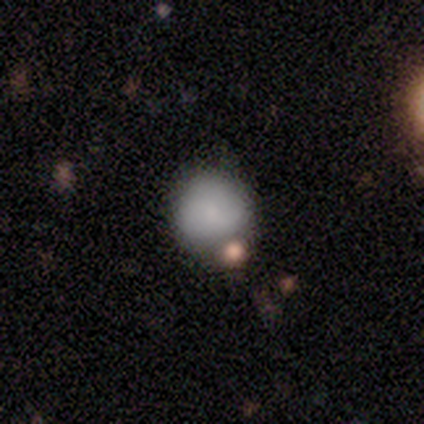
Volunteers were most divided on "smooth or featured": smooth: 60%, star or artifact: 40%, featured or disk: 0%. More confident: how rounded — round (100%); merging — none (100%).